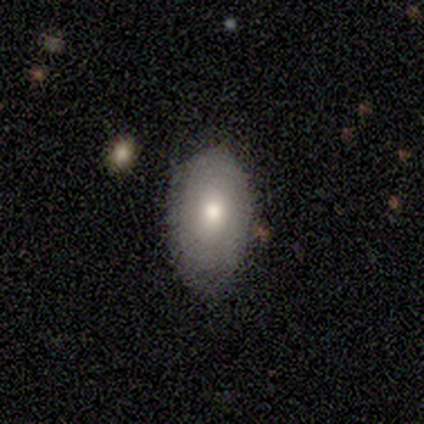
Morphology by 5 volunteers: Q: Smooth or featured?
A: smooth (100%)
Q: How rounded?
A: in between (100%)
Q: Merging?
A: none (100%)